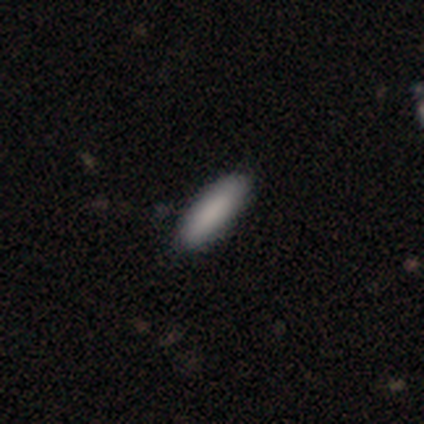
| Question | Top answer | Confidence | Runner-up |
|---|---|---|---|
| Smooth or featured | smooth | 80% | featured or disk (20%) |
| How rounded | cigar-shaped | 100% | — |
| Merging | none | 100% | — |